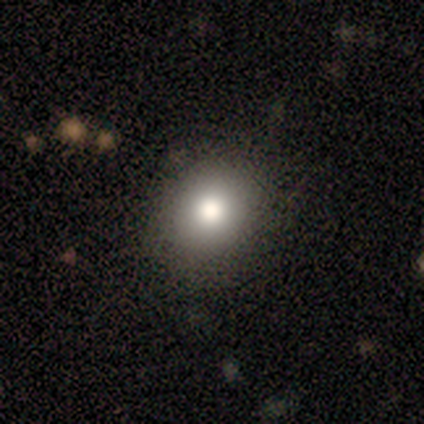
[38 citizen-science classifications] A smooth galaxy with no disk features (84%) that is round (72%).

Vote fractions:
- Smooth or featured? smooth: 84% / featured or disk: 11% / star or artifact: 5%
- How rounded? round: 72% / in between: 28% / cigar-shaped: 0%
- Merging? none: 89% / minor disturbance: 6% / major disturbance: 3% / merger: 3%